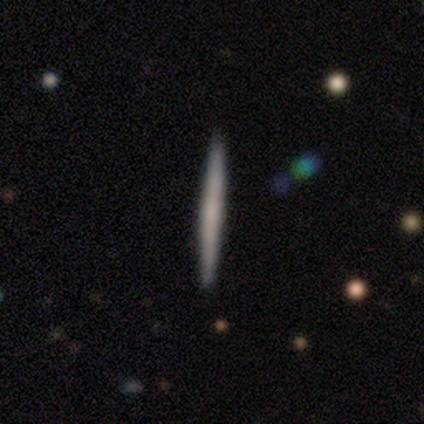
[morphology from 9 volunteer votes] Volunteers were most divided on "smooth or featured": smooth: 56%, featured or disk: 44%, star or artifact: 0%. More confident: how rounded — cigar-shaped (100%); merging — none (100%).